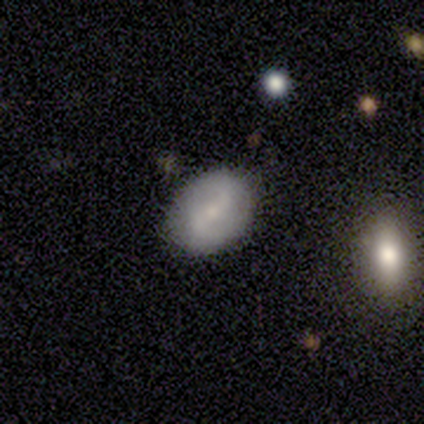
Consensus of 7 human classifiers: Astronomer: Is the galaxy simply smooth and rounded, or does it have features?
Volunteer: featured or disk — 71%.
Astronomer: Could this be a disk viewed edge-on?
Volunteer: no — 100%.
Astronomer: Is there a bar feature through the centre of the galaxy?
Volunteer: weak — 40%, tied with no at 40%.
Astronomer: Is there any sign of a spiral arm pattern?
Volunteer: yes — 100%.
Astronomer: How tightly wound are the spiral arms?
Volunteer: medium — 60%.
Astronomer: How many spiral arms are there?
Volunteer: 2 — 80%.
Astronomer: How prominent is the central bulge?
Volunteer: small — 80%.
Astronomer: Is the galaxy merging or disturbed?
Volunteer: none — 100%.